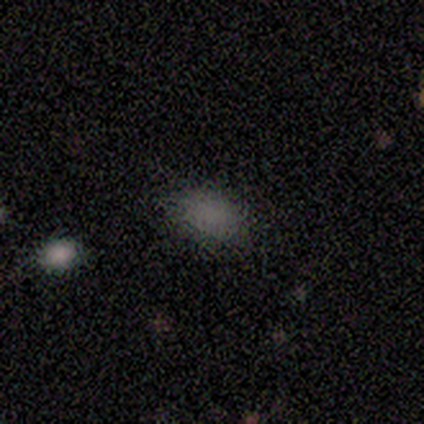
This appears to be a smooth galaxy with no disk features (60%) that is in between round and cigar-shaped (67%). Merging: minor disturbance (67%).